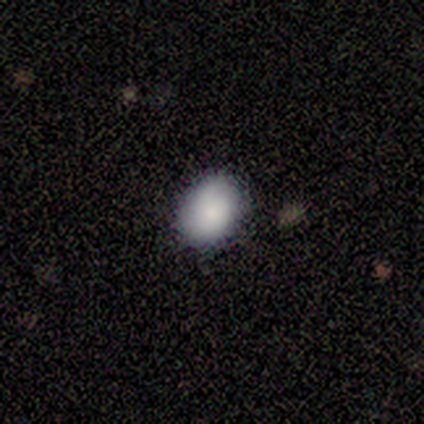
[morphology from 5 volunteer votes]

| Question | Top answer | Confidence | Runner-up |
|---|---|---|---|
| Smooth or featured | smooth | 80% | featured or disk (20%) |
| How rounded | round | 50% | tied: in between (50%) |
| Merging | none | 100% | — |